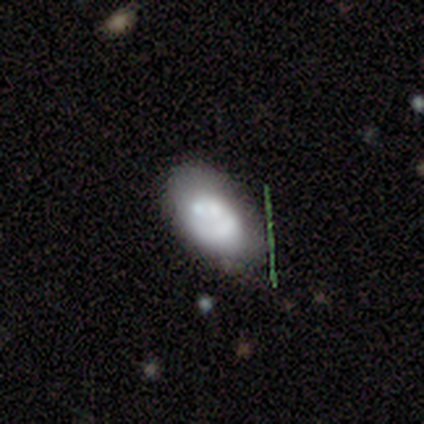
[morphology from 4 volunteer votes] smooth-or-featured: smooth: 50% (tied) | featured or disk: 50% (tied) | star or artifact: 0%
  how-rounded: in between: 100% | round: 0% | cigar-shaped: 0%
  merging: none: 75% | major disturbance: 25% | minor disturbance: 0% | merger: 0%